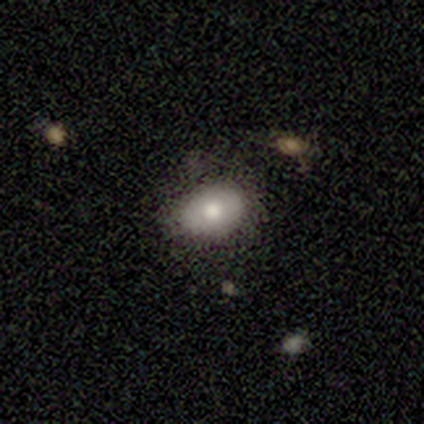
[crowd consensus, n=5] smooth-or-featured: smooth: 100% | featured or disk: 0% | star or artifact: 0%
  how-rounded: in between: 80% | round: 20% | cigar-shaped: 0%
  merging: none: 60% | minor disturbance: 40% | major disturbance: 0% | merger: 0%